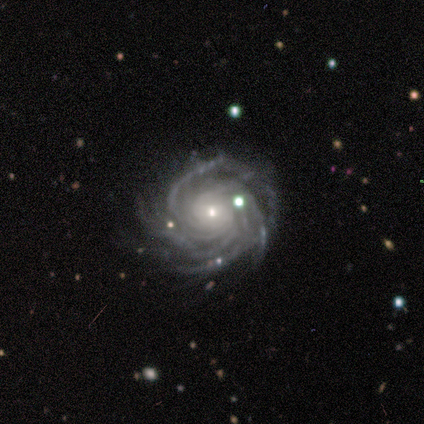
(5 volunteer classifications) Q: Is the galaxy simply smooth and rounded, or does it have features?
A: featured or disk — 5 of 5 (100%).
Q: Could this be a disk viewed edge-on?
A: no — 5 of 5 (100%).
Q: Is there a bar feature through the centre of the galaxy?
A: no — 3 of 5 (60%).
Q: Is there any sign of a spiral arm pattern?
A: yes — 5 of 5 (100%).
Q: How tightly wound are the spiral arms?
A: tight — 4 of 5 (80%).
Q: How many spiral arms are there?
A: more than 4 — 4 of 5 (80%).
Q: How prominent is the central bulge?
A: small — 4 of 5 (80%).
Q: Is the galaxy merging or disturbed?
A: none — 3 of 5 (60%).